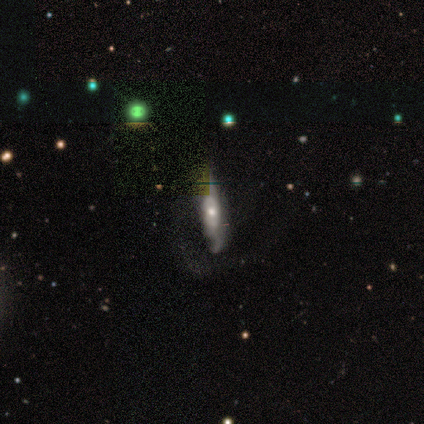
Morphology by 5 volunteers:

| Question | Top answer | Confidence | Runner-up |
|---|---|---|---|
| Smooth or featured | featured or disk | 80% | smooth (20%) |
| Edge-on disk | no | 75% | yes (25%) |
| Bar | no | 100% | — |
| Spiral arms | yes | 100% | — |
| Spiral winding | loose | 67% | medium (33%) |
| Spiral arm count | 1 | 33% | tied: 2 (33%), can't tell (33%) |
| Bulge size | moderate | 100% | — |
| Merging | major disturbance | 60% | none (20%) |